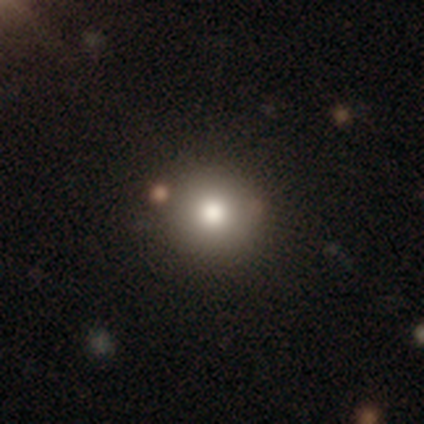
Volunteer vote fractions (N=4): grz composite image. It shows a smooth galaxy with no disk features (50%) that is round (100%). Merging: none (100%).